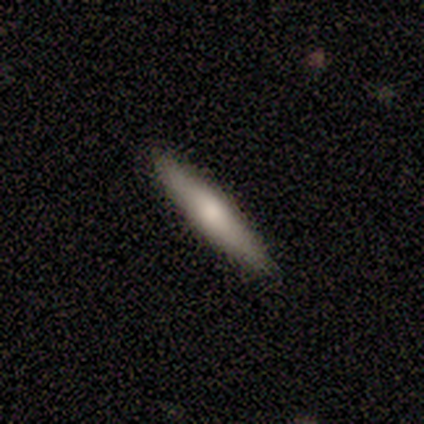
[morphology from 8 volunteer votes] Q: Smooth or featured?
A: featured or disk (62%); runner-up: smooth (38%)
Q: Edge-on disk?
A: yes (80%); runner-up: no (20%)
Q: Edge-on bulge?
A: rounded (100%)
Q: Merging?
A: none (88%); runner-up: minor disturbance (12%)